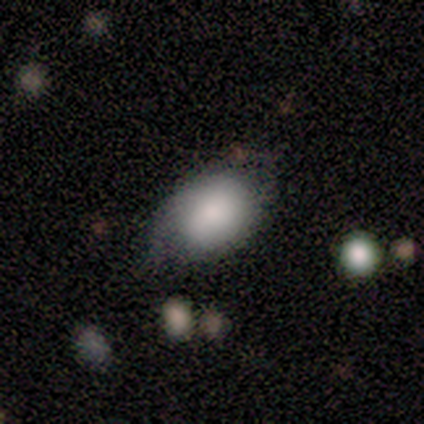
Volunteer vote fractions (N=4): Volunteers were most divided on "merging": minor disturbance: 67%, none: 33%, major disturbance: 0%, merger: 0%. More confident: how rounded — in between (100%); smooth or featured — smooth (75%).